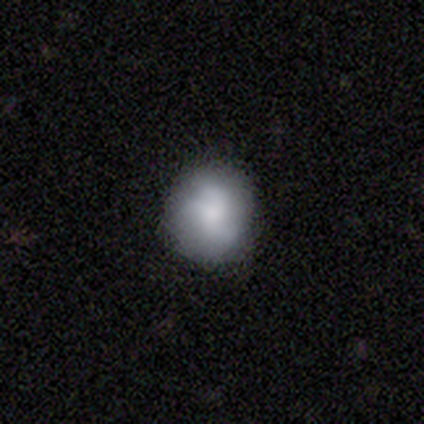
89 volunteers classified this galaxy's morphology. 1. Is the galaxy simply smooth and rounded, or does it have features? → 62% smooth, 25% featured or disk, 13% star or artifact.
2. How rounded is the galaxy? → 84% round, 15% in between, 2% cigar-shaped.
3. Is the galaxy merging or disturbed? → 79% none, 16% minor disturbance, 4% major disturbance, 1% merger.